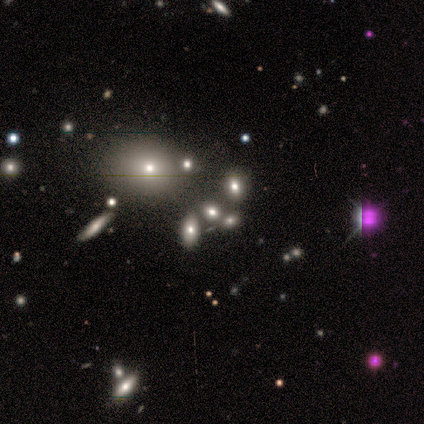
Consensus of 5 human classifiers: Smooth or featured? smooth (40%, tied with featured or disk)
How rounded? in between (100%)
Merging? none (75%)